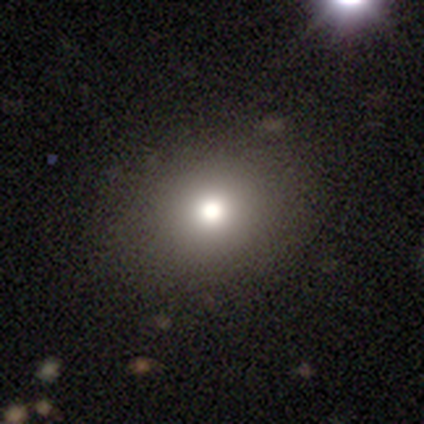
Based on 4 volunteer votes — Smooth or featured? 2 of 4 (50%) said smooth. How rounded? 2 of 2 (100%) said round. Merging? 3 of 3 (100%) said none.